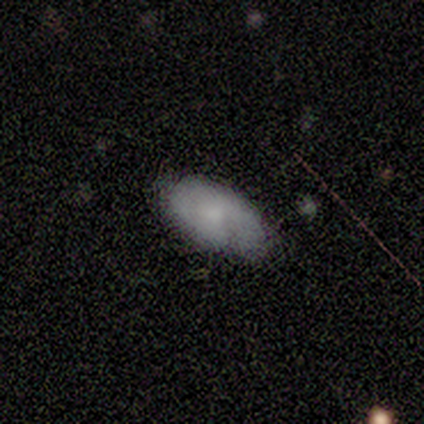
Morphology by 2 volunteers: Q: Smooth or featured?
A: smooth (100%)
Q: How rounded?
A: round (50%); tied with: in between (50%)
Q: Merging?
A: none (100%)